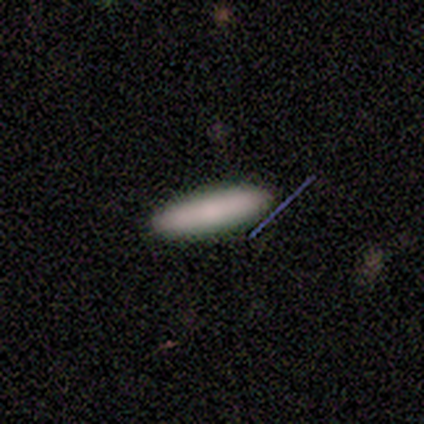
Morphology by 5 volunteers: Smooth or featured: smooth — 100%
How rounded: cigar-shaped — 80% (in between — 20%)
Merging: none — 80% (minor disturbance — 20%)